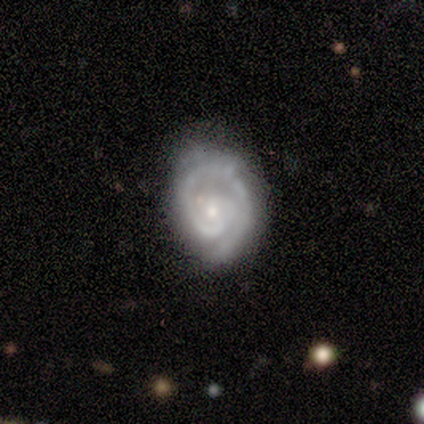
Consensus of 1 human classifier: Smooth or featured?
  - star or artifact: 100% *
  - smooth: 0%
  - featured or disk: 0%